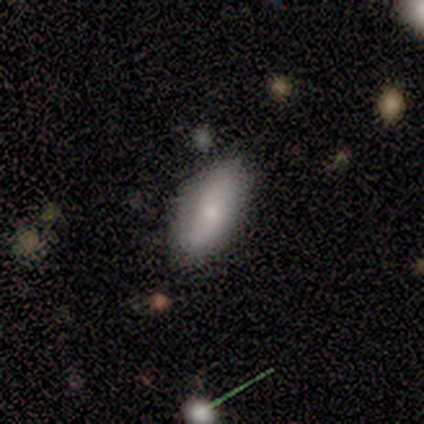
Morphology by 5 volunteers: smooth-or-featured: smooth: 80% | featured or disk: 20% | star or artifact: 0%
  how-rounded: in between: 100% | round: 0% | cigar-shaped: 0%
  merging: none: 100% | minor disturbance: 0% | major disturbance: 0% | merger: 0%